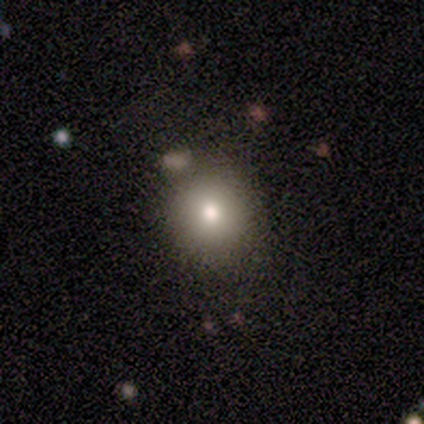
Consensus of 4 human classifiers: smooth 75%, featured or disk 25%, star or artifact 0%. Down the decision tree: how rounded — round (100%); merging — none (75%).